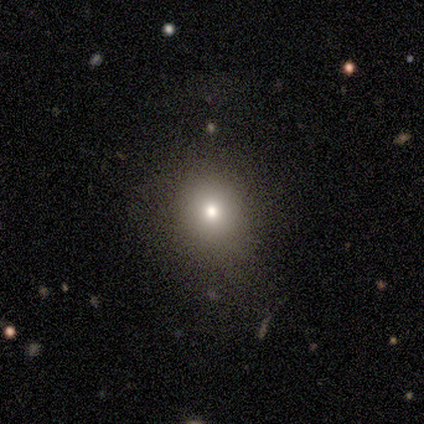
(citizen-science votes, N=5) Overall: smooth (80%). How rounded: round (100%). Merging: none (100%).